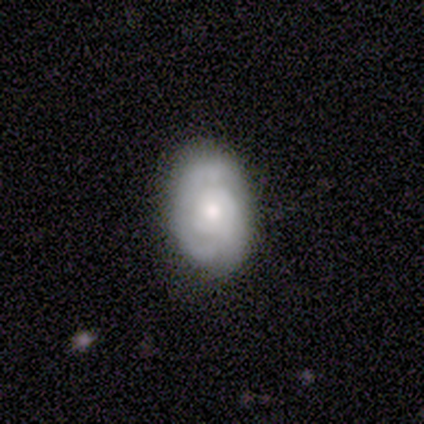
A featured or disk galaxy (60%) with no bar (100%), no spiral arms (67%) and a small central bulge (67%).

Vote fractions:
- Smooth or featured? featured or disk: 60% / smooth: 40% / star or artifact: 0%
- Edge-on disk? no: 100% / yes: 0%
- Bar? no: 100% / strong: 0% / weak: 0%
- Spiral arms? no: 67% / yes: 33%
- Bulge size? small: 67% / moderate: 33% / dominant: 0% / large: 0% / none: 0%
- Merging? none: 60% / minor disturbance: 40% / major disturbance: 0% / merger: 0%